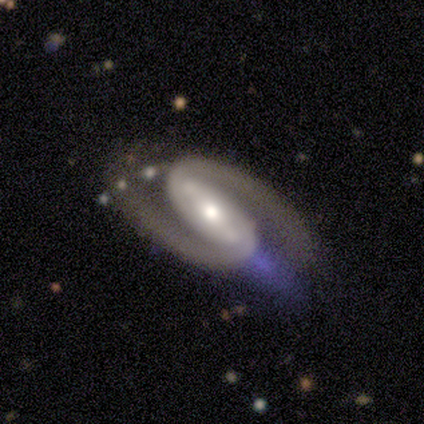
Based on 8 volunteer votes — Overall: featured or disk (100%). Edge-on disk: no (100%). Bar: strong (75%). Spiral arms: yes (100%). Spiral arm count: 2 (100%). Spiral winding: medium (62%; tight 38%). Bulge size: moderate (62%; large 25%). Merging: none (75%).